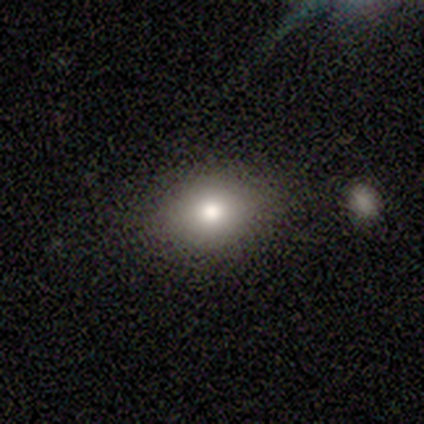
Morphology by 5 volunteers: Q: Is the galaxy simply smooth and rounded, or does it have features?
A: smooth — 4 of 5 (80%).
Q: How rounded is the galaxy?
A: round — 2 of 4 (50%, tied with in between).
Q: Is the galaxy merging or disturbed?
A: none — 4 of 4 (100%).